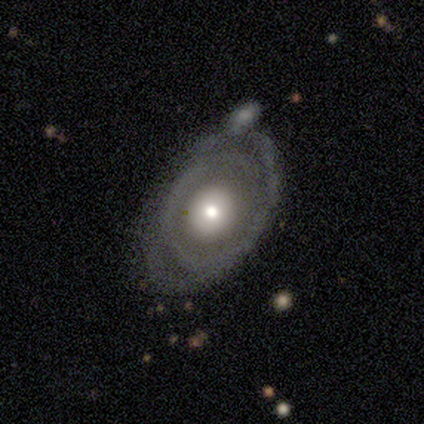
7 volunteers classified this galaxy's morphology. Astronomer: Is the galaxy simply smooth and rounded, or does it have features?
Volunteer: featured or disk — 86%.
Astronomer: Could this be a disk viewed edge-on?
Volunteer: no — 100%.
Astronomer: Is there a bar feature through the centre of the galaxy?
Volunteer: no — 100%.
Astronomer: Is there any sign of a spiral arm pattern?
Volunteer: no — 67%.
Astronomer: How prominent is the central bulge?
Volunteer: moderate — 83%.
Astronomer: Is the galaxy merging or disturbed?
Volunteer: none — 57% (runner-up: minor disturbance, 43%).